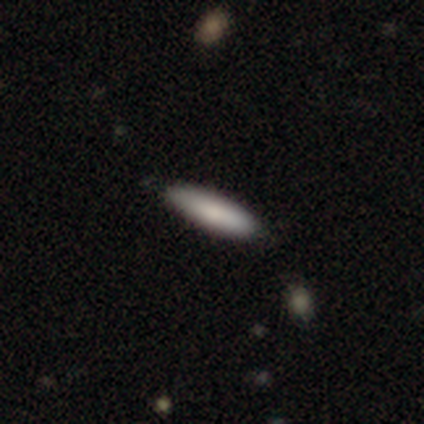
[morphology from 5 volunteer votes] smooth-or-featured: smooth: 100% | featured or disk: 0% | star or artifact: 0%
  how-rounded: cigar-shaped: 80% | in between: 20% | round: 0%
  merging: none: 100% | minor disturbance: 0% | major disturbance: 0% | merger: 0%